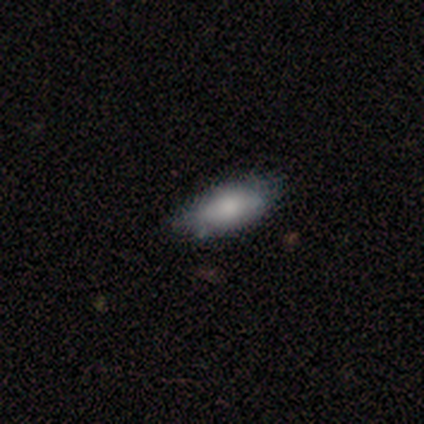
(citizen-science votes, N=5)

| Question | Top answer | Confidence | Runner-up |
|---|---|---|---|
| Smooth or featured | smooth | 100% | — |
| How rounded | in between | 60% | cigar-shaped (40%) |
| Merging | none | 80% | minor disturbance (20%) |